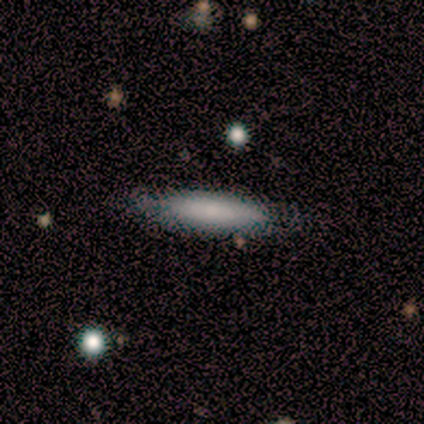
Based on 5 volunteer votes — smooth 80%, featured or disk 20%, star or artifact 0%. Down the decision tree: how rounded — cigar-shaped (100%); merging — none (60%).